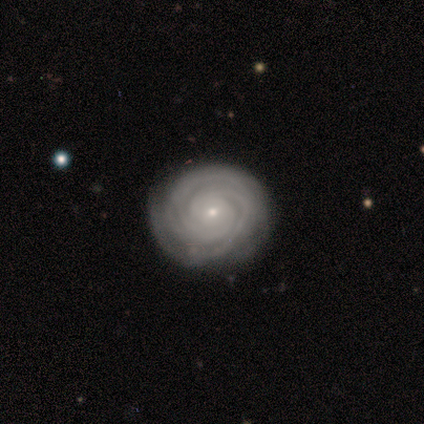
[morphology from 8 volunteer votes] Smooth or featured? featured or disk (75%)
Edge-on disk? no (100%)
Bar? no (67%)
Spiral arms? yes (100%)
Spiral winding? tight (83%)
Spiral arm count? 2 (67%)
Bulge size? small (100%)
Merging? none (62%)